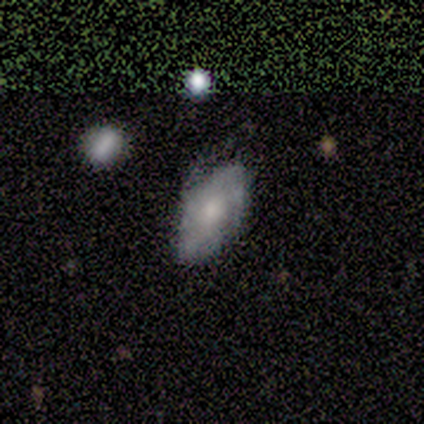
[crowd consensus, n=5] This appears to be a featured or disk galaxy (60%) with no bar (100%), tight (67%) spiral arms (100%) and a moderate central bulge (67%). Merging: minor disturbance (60%).